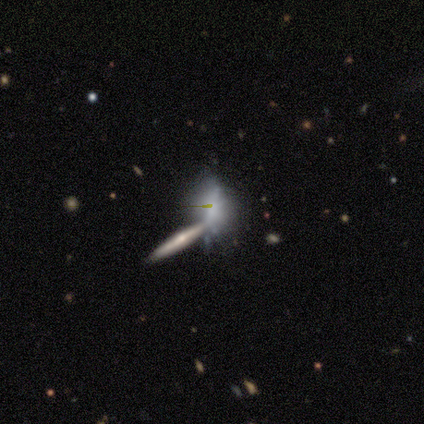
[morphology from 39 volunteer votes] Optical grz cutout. It shows a featured or disk galaxy (69%) viewed edge-on (59%) with a rounded central bulge (88%). Merging: merger (42%).